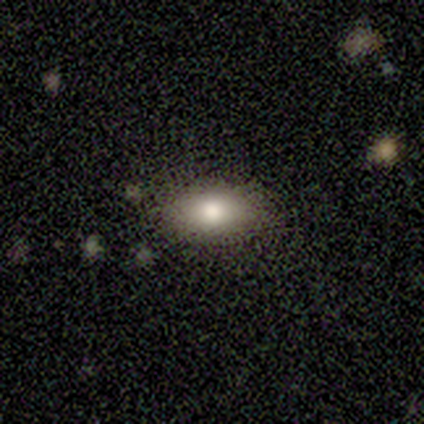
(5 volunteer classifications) Smooth or featured: smooth — 80% (star or artifact — 20%)
How rounded: in between — 75% (round — 25%)
Merging: none — 100%